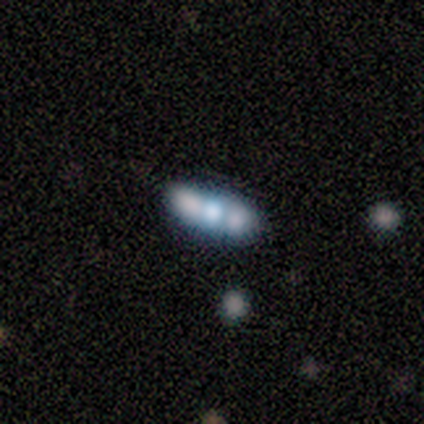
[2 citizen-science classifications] This is clearly a featured or disk galaxy (100%). It is possibly viewed edge-on (50%, tied with no). Edge-on bulge: clearly rounded (100%). Merging: possibly none (50%, tied with major disturbance).